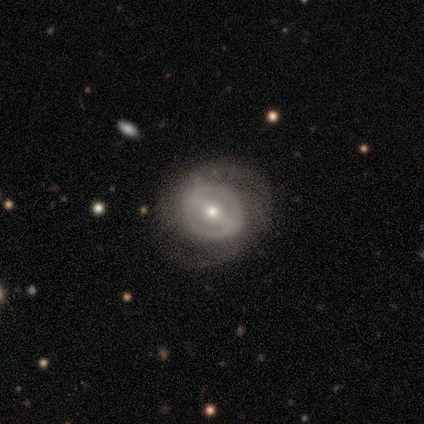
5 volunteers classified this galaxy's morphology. type=featured or disk (100%); edge-on=no (100%); bar=weak (80%); spiral arms=no (80%); bulge=small (100%); merging=none (80%).